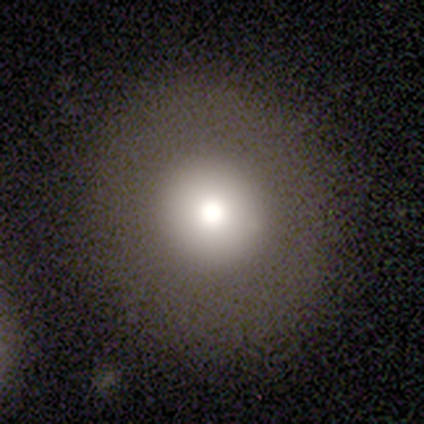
A smooth galaxy with no disk features (40%, tied with featured or disk) that is round (50%, tied with in between). Merging: none (75%).